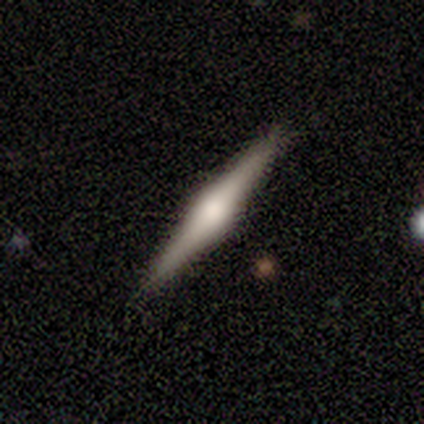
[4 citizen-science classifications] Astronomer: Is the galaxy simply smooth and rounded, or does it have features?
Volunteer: smooth — 50%, tied with featured or disk at 50%.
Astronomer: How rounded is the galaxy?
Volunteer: cigar-shaped — 100%.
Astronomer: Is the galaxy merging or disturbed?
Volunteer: none — 75%.